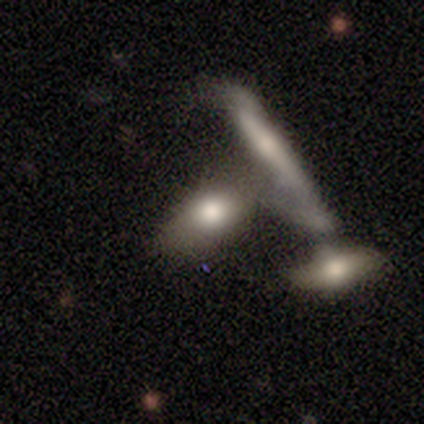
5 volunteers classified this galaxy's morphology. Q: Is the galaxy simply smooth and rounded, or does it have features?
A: smooth — 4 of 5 (80%).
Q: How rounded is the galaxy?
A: in between — 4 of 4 (100%).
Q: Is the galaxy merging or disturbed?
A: none — 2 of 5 (40%, tied with merger).